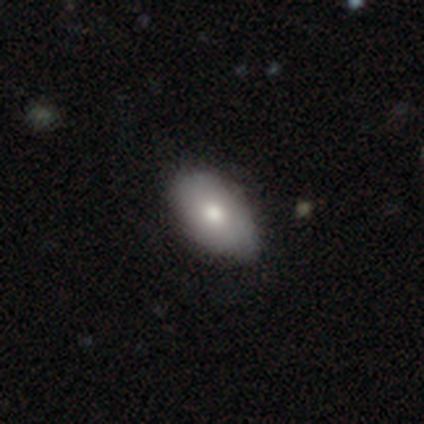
Volunteers were most divided on "merging": none: 80%, minor disturbance: 20%, major disturbance: 0%, merger: 0%. More confident: smooth or featured — smooth (100%); how rounded — in between (100%).